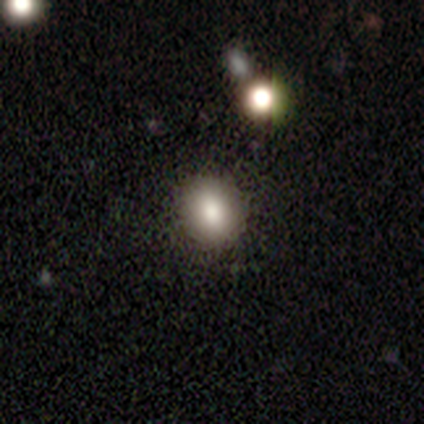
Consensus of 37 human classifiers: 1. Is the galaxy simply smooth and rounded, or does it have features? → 78% smooth, 14% star or artifact, 8% featured or disk.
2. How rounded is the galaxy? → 66% round, 34% in between, 0% cigar-shaped.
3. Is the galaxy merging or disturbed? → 84% none, 12% minor disturbance, 3% major disturbance, 0% merger.